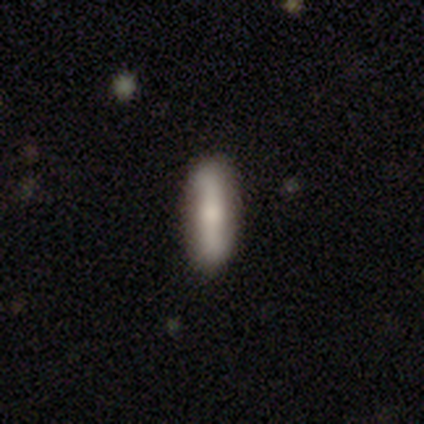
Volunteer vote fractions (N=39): smooth-or-featured: smooth: 59% | featured or disk: 36% | star or artifact: 5%
  how-rounded: cigar-shaped: 78% | in between: 22% | round: 0%
  merging: none: 84% | minor disturbance: 11% | merger: 5% | major disturbance: 0%